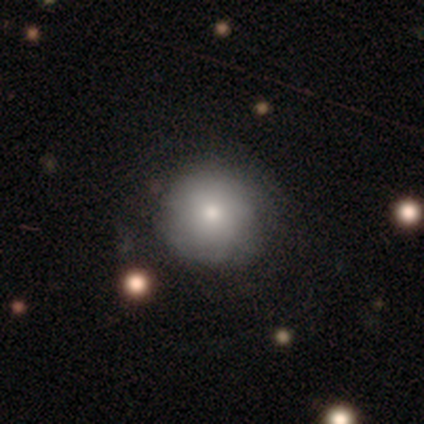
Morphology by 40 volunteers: Smooth or featured?
  - smooth: 78% *
  - featured or disk: 22%
  - star or artifact: 0%
How rounded?
  - round: 100% *
  - in between: 0%
  - cigar-shaped: 0%
Merging?
  - none: 60% *
  - minor disturbance: 8%
  - major disturbance: 2%
  - merger: 0%